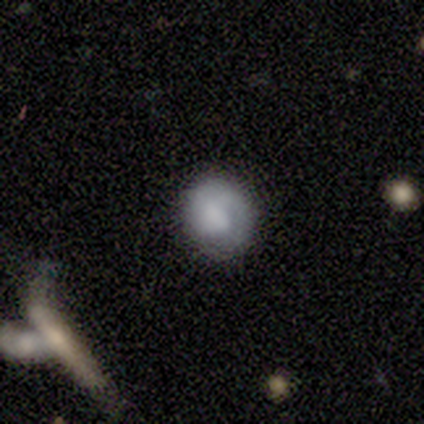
Smooth or featured: smooth — 80% (featured or disk — 20%)
How rounded: round — 100%
Merging: none — 80% (major disturbance — 20%)